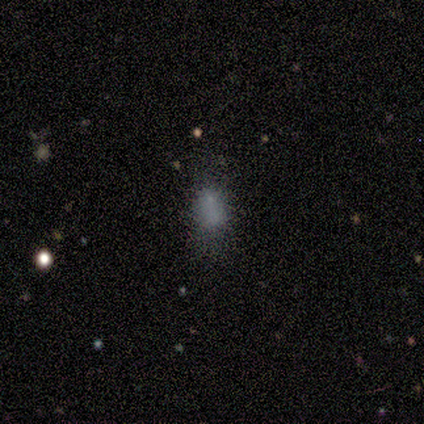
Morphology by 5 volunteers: A smooth galaxy with no disk features (80%) that is in between round and cigar-shaped (100%). Merging: none (50%, tied with major disturbance).